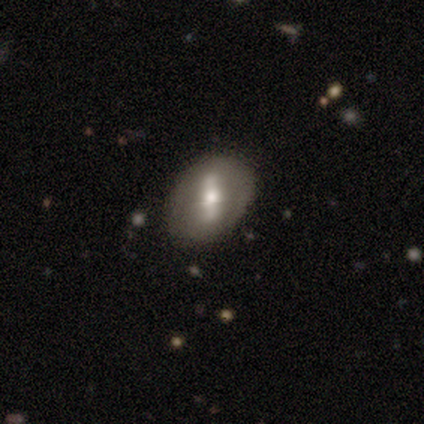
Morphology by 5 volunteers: A featured or disk galaxy (60%) with a weak bar (50%, tied with no), medium (50%, tied with loose) spiral arms (100%) and a moderate central bulge (100%).

Vote fractions:
- Smooth or featured? featured or disk: 60% / smooth: 20% / star or artifact: 20%
- Edge-on disk? no: 67% / yes: 33%
- Bar? weak: 50% (tied) / no: 50% (tied) / strong: 0%
- Spiral arms? yes: 100% / no: 0%
- Spiral winding? medium: 50% (tied) / loose: 50% (tied) / tight: 0%
- Spiral arm count? can't tell: 100% / 1: 0% / 2: 0% / 3: 0% / 4: 0% / more than 4: 0%
- Bulge size? moderate: 100% / dominant: 0% / large: 0% / small: 0% / none: 0%
- Merging? none: 50% / minor disturbance: 25% / major disturbance: 25% / merger: 0%